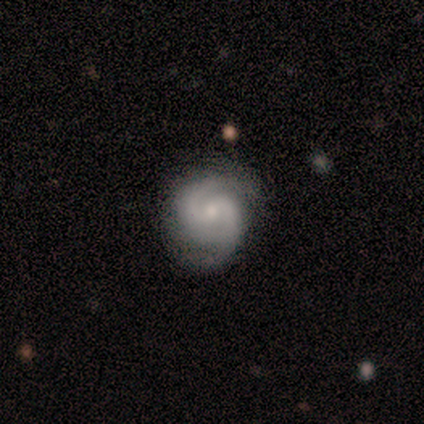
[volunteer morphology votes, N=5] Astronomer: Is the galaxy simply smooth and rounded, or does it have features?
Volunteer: featured or disk — 80%.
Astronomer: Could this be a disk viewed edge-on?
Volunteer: no — 100%.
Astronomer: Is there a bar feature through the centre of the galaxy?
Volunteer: no — 50%.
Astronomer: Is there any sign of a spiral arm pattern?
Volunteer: yes — 100%.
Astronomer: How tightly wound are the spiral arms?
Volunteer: tight — 75%.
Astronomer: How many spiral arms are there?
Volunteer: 2 — 100%.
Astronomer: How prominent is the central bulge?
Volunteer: small — 100%.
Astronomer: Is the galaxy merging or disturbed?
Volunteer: none — 100%.